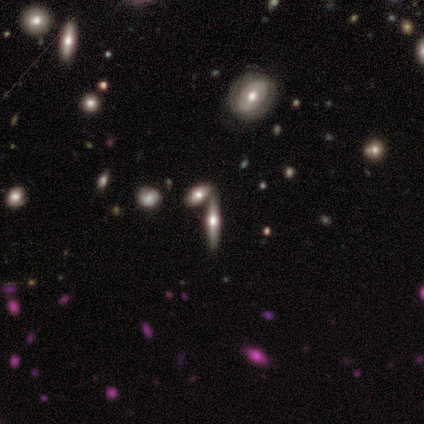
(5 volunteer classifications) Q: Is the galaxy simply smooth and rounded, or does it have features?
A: featured or disk — 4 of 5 (80%).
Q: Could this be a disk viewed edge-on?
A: yes — 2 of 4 (50%, tied with no).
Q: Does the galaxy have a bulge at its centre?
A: rounded — 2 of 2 (100%).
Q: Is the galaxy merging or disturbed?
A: merger — 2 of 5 (40%).